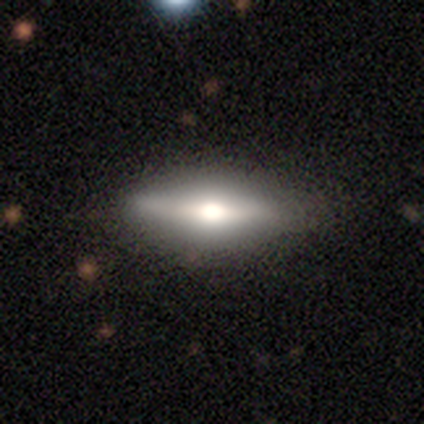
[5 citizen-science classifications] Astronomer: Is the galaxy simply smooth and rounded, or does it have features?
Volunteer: smooth — 60% (runner-up: featured or disk, 40%).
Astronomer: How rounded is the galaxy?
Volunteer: in between — 100%.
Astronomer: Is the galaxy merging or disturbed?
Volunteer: none — 100%.